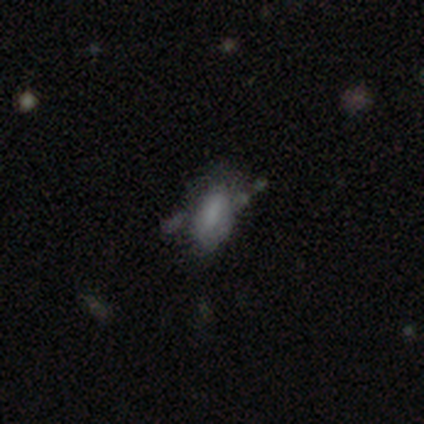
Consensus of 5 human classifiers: This appears to be a featured or disk galaxy (60%) with a weak bar (67%), no spiral arms (100%) and no central bulge (67%). Merging: major disturbance (40%).